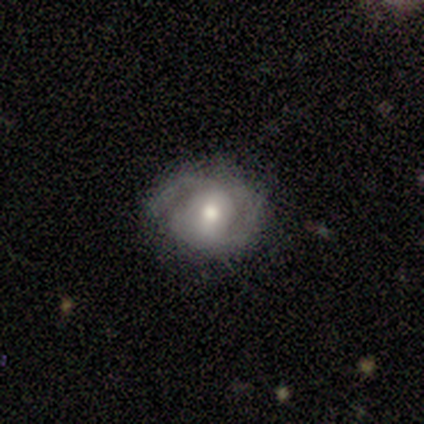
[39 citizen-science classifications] Morphology: type=featured or disk (72%); edge-on=no (100%); bar=no (39%); spiral arms=yes (82%); winding=medium (52%); arm count=2 (83%); bulge=moderate (64%); merging=none (65%).